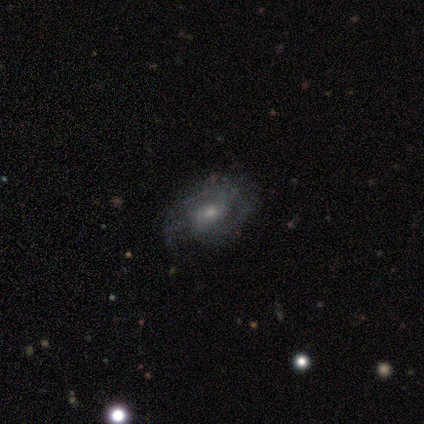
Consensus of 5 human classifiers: Overall: featured or disk (60%; smooth 40%). Edge-on disk: no (100%). Bar: weak (67%; no 33%). Spiral arms: yes (100%). Spiral arm count: 2 (33%, tied with 3 and can't tell). Spiral winding: tight (33%, tied with medium and loose). Bulge size: small (100%). Merging: none (100%).